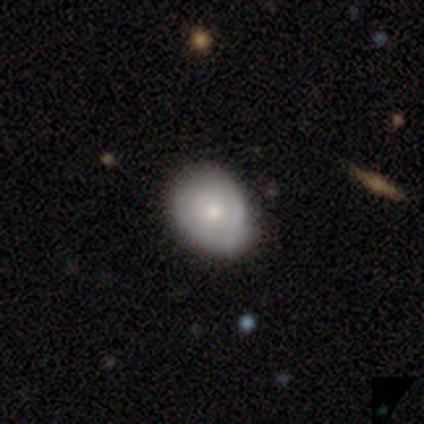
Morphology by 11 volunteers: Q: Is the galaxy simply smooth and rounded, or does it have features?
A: smooth — 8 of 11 (73%).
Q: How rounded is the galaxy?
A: in between — 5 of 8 (62%).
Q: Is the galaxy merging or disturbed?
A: none — 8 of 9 (89%).